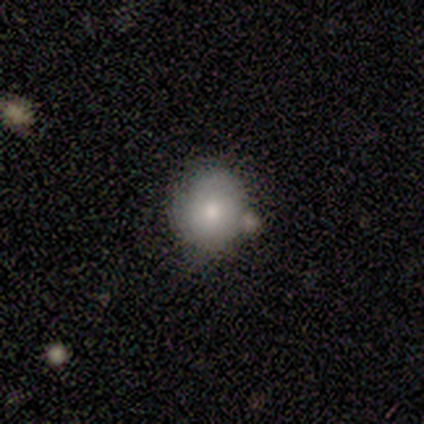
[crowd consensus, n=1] smooth_or_featured: smooth (p=1.00)
how_rounded: round (p=1.00)
merging: minor disturbance (p=1.00)